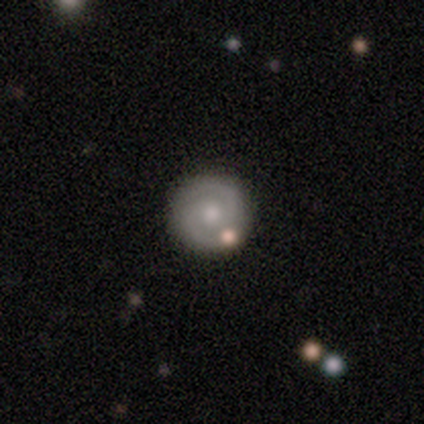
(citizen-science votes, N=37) Overall: featured or disk (70%). Edge-on disk: no (100%). Bar: no (77%). Spiral arms: yes (92%). Spiral arm count: 2 (96%). Spiral winding: tight (54%; medium 42%). Bulge size: moderate (50%; small 27%). Merging: none (50%; merger 11%).